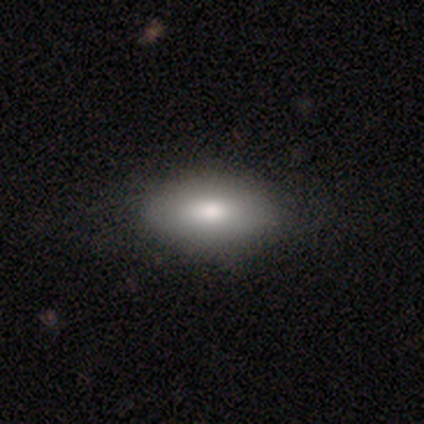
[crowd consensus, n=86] Smooth or featured? 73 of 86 (85%) said smooth. How rounded? 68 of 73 (93%) said in between. Merging? 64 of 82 (78%) said none.